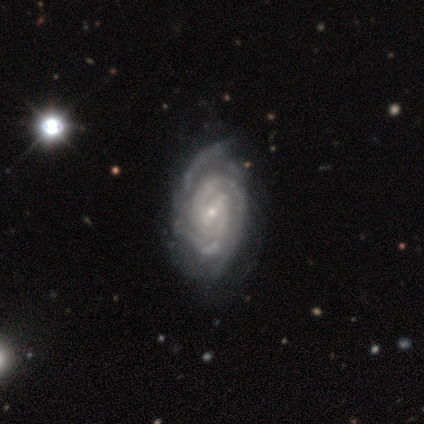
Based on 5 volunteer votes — A featured or disk galaxy (100%) with a weak bar (100%), 2 (40%, tied with can't tell) tight (80%) spiral arms (100%) and a small central bulge (80%).

Vote fractions:
- Smooth or featured? featured or disk: 100% / smooth: 0% / star or artifact: 0%
- Edge-on disk? no: 100% / yes: 0%
- Bar? weak: 100% / strong: 0% / no: 0%
- Spiral arms? yes: 100% / no: 0%
- Spiral winding? tight: 80% / medium: 20% / loose: 0%
- Spiral arm count? 2: 40% (tied) / can't tell: 40% (tied) / 4: 20% / 1: 0% / 3: 0% / more than 4: 0%
- Bulge size? small: 80% / moderate: 20% / dominant: 0% / large: 0% / none: 0%
- Merging? none: 60% / minor disturbance: 20% / major disturbance: 20% / merger: 0%